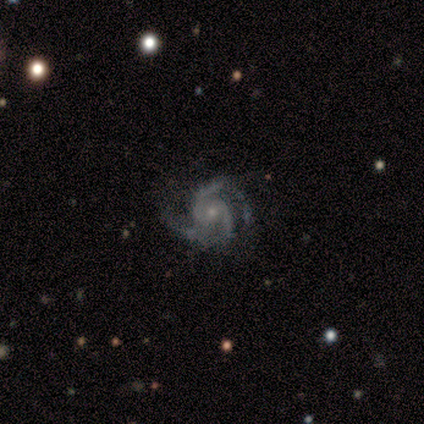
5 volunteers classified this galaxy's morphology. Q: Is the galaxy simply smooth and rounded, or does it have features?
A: featured or disk — 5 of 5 (100%).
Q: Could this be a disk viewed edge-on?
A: no — 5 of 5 (100%).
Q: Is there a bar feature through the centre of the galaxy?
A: no — 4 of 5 (80%).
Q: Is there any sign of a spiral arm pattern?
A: yes — 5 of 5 (100%).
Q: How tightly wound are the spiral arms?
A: medium — 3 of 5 (60%).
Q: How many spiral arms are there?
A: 3 — 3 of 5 (60%).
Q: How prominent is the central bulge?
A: small — 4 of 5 (80%).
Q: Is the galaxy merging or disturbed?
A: none — 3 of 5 (60%).